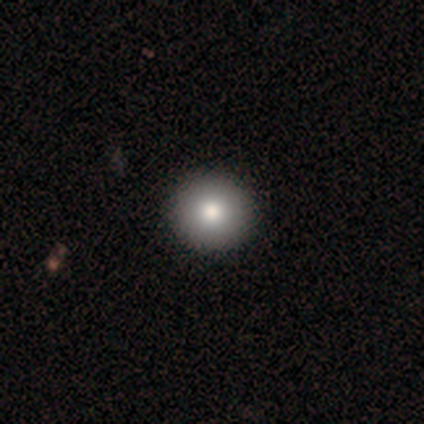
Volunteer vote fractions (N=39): Smooth or featured?
  - smooth: 87% *
  - featured or disk: 10%
  - star or artifact: 3%
How rounded?
  - round: 100% *
  - in between: 0%
  - cigar-shaped: 0%
Merging?
  - none: 76% *
  - minor disturbance: 3%
  - major disturbance: 0%
  - merger: 0%